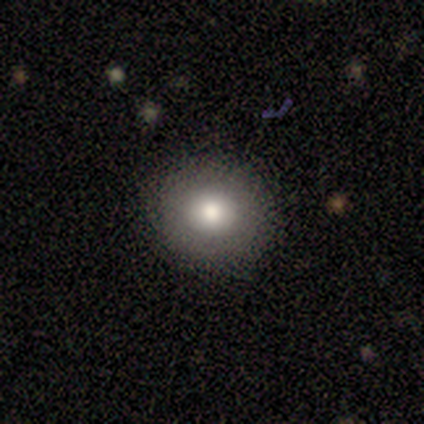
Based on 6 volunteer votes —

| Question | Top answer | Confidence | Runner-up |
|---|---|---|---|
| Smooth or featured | smooth | 83% | featured or disk (17%) |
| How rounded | round | 100% | — |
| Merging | none | 100% | — |